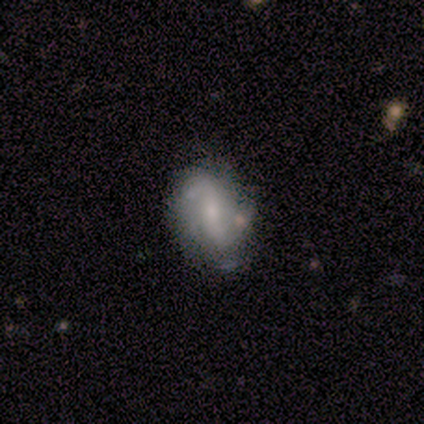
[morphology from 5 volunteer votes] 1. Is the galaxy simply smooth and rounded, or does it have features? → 80% featured or disk, 20% smooth, 0% star or artifact.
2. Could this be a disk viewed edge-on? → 50% yes (tied), 50% no (tied).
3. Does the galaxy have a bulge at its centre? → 100% none, 0% boxy, 0% rounded.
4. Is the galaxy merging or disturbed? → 40% none (tied), 40% minor disturbance (tied), 20% major disturbance, 0% merger.